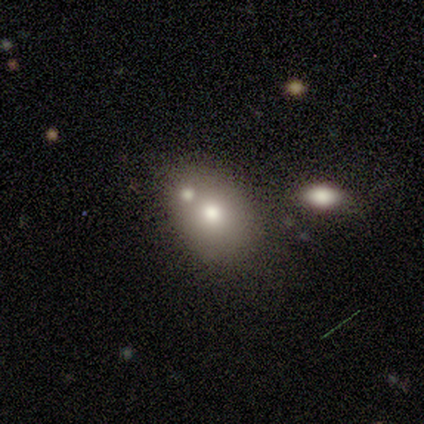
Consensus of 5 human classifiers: Smooth or featured: smooth — 60% (featured or disk — 40%)
How rounded: in between — 100%
Merging: minor disturbance — 40% (none — 20%)